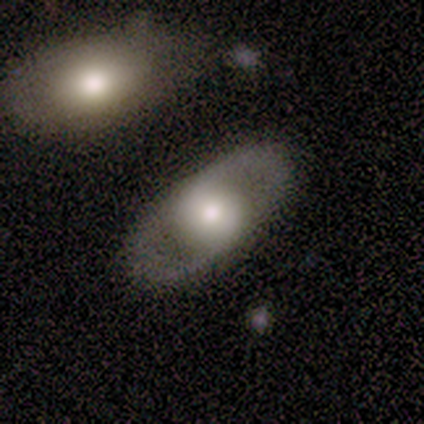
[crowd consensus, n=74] Q: Smooth or featured?
A: featured or disk (73%); runner-up: smooth (23%)
Q: Edge-on disk?
A: no (78%); runner-up: yes (22%)
Q: Bar?
A: no (76%); runner-up: weak (19%)
Q: Spiral arms?
A: no (67%); runner-up: yes (33%)
Q: Bulge size?
A: moderate (50%); runner-up: large (33%)
Q: Merging?
A: none (79%); runner-up: minor disturbance (14%)